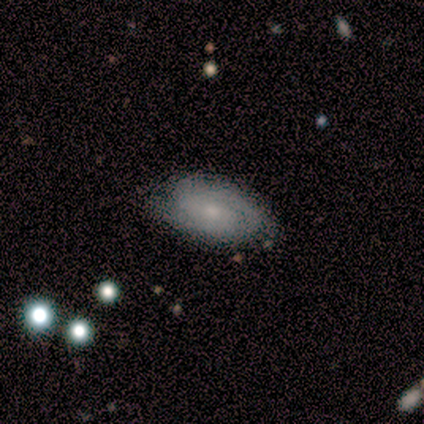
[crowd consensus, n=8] Smooth or featured?
  - smooth: 50% * (tied)
  - featured or disk: 50% * (tied)
  - star or artifact: 0%
How rounded?
  - in between: 100% *
  - round: 0%
  - cigar-shaped: 0%
Merging?
  - none: 75% *
  - minor disturbance: 25%
  - major disturbance: 0%
  - merger: 0%